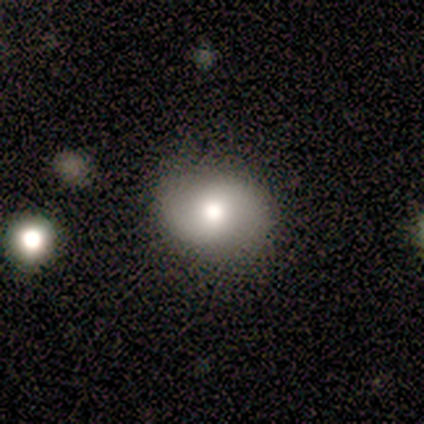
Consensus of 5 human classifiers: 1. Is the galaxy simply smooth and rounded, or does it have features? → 60% featured or disk, 40% smooth, 0% star or artifact.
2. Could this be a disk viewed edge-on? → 100% no, 0% yes.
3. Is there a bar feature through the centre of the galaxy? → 67% weak, 33% no, 0% strong.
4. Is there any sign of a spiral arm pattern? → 100% yes, 0% no.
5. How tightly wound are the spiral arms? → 67% loose, 33% tight, 0% medium.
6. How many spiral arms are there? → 100% 2, 0% 1, 0% 3, 0% 4, 0% more than 4, 0% can't tell.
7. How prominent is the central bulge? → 100% moderate, 0% dominant, 0% large, 0% small, 0% none.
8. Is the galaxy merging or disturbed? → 80% none, 20% minor disturbance, 0% major disturbance, 0% merger.